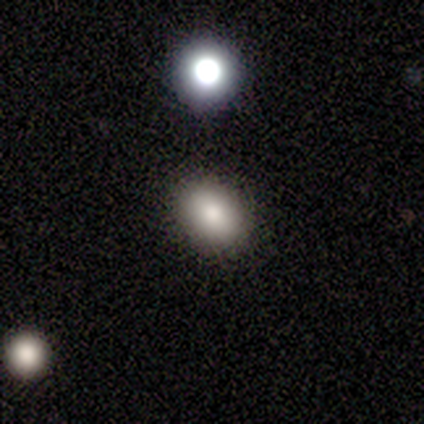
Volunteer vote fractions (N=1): smooth_or_featured: smooth (p=1.00)
how_rounded: in between (p=1.00)
merging: none (p=1.00)